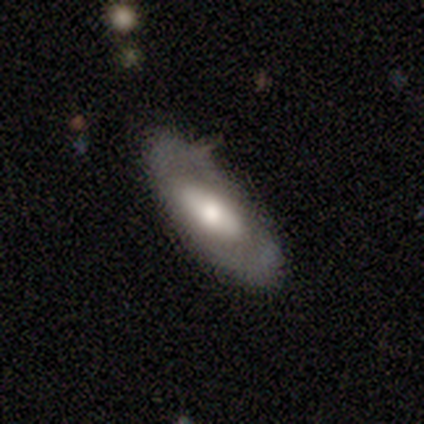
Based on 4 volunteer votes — Q: Smooth or featured?
A: featured or disk (50%); runner-up: smooth (25%)
Q: Edge-on disk?
A: no (100%)
Q: Bar?
A: weak (50%); tied with: no (50%)
Q: Spiral arms?
A: no (100%)
Q: Bulge size?
A: moderate (50%); tied with: small (50%)
Q: Merging?
A: none (67%); runner-up: minor disturbance (33%)